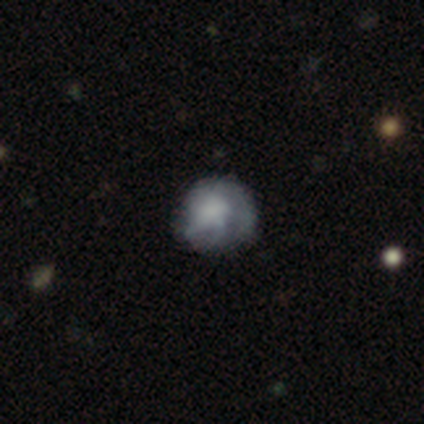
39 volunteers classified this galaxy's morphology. This appears to be a smooth galaxy with no disk features (56%) that is round (82%). Merging: none (62%).